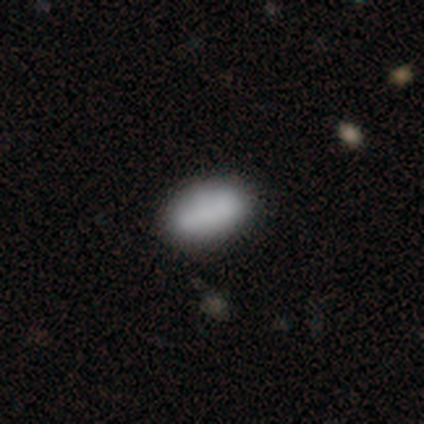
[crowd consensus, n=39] Smooth or featured?
  - smooth: 82% *
  - featured or disk: 15%
  - star or artifact: 3%
How rounded?
  - in between: 100% *
  - round: 0%
  - cigar-shaped: 0%
Merging?
  - none: 66% *
  - major disturbance: 5%
  - minor disturbance: 3%
  - merger: 3%